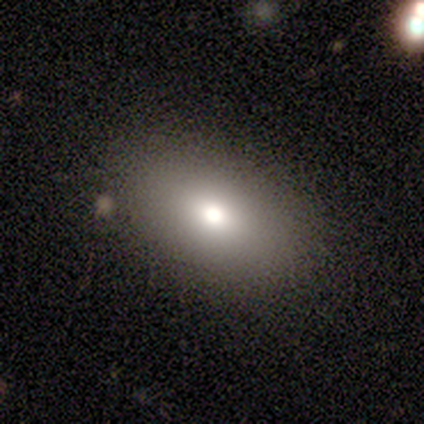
smooth-or-featured: smooth: 80% | featured or disk: 20% | star or artifact: 0%
  how-rounded: in between: 100% | round: 0% | cigar-shaped: 0%
  merging: none: 100% | minor disturbance: 0% | major disturbance: 0% | merger: 0%